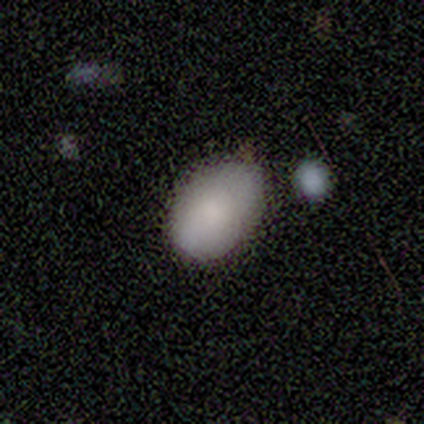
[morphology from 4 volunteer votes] This is likely a smooth galaxy (75%). How rounded: clearly in between (100%). Merging: likely none (75%).